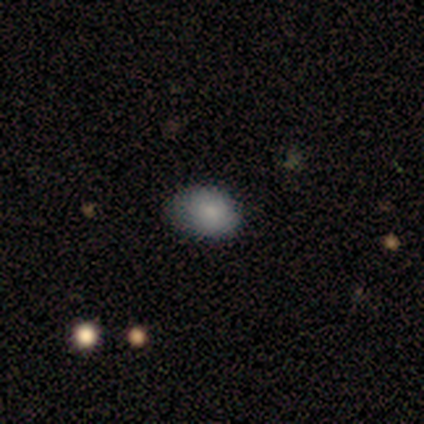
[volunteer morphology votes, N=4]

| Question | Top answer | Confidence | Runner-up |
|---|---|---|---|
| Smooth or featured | smooth | 100% | — |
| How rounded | in between | 50% | round (25%) |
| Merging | none | 50% | minor disturbance (25%) |